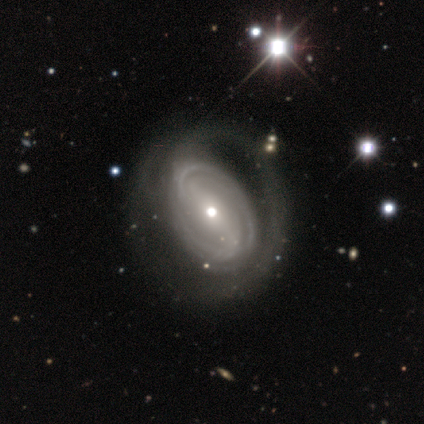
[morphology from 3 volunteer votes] smooth_or_featured: featured or disk (p=1.00)
disk_edge_on: no (p=0.67) [alt: yes p=0.33]
bar: strong (p=0.50) [tied with: weak p=0.50]
has_spiral_arms: yes (p=1.00)
spiral_winding: tight (p=1.00)
spiral_arm_count: 2 (p=0.50) [tied with: 4 p=0.50]
bulge_size: small (p=1.00)
merging: none (p=1.00)